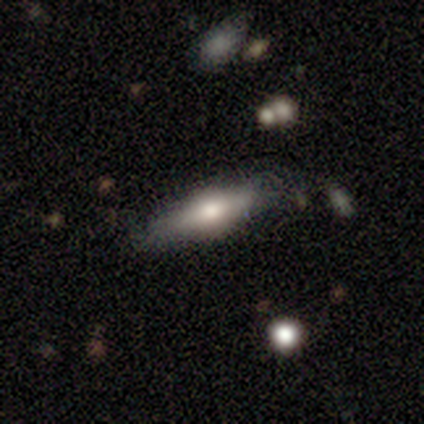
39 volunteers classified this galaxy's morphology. smooth-or-featured: smooth: 51% | featured or disk: 44% | star or artifact: 5%
  how-rounded: cigar-shaped: 65% | in between: 35% | round: 0%
  merging: none: 54% | minor disturbance: 32% | major disturbance: 14% | merger: 0%